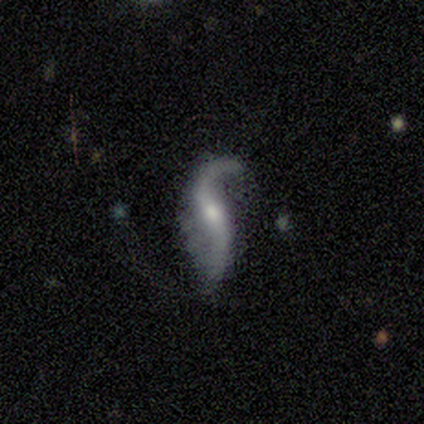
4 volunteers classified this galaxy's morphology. Smooth or featured? featured or disk (100%)
Edge-on disk? no (100%)
Bar? strong (50%, tied with no)
Spiral arms? yes (100%)
Spiral winding? loose (100%)
Spiral arm count? 2 (100%)
Bulge size? moderate (100%)
Merging? none (100%)